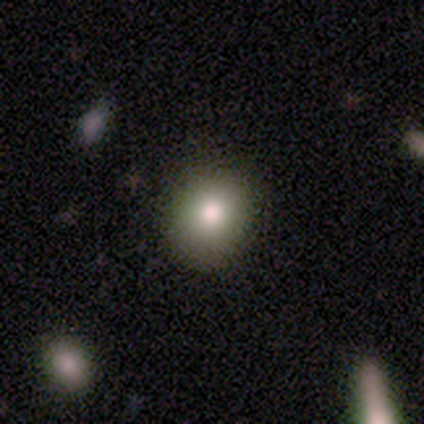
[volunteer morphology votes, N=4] Smooth or featured?
  - smooth: 100% *
  - featured or disk: 0%
  - star or artifact: 0%
How rounded?
  - round: 100% *
  - in between: 0%
  - cigar-shaped: 0%
Merging?
  - none: 100% *
  - minor disturbance: 0%
  - major disturbance: 0%
  - merger: 0%